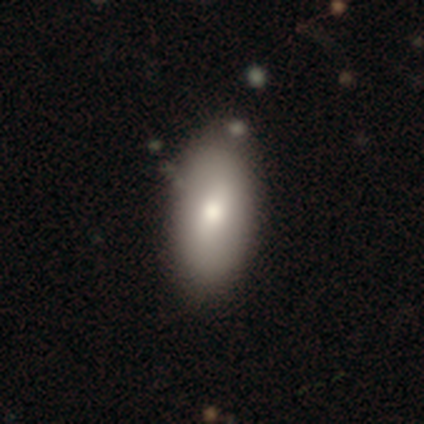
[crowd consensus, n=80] Overall: smooth (81%). How rounded: in between (92%). Merging: none (37%; minor disturbance 8%).